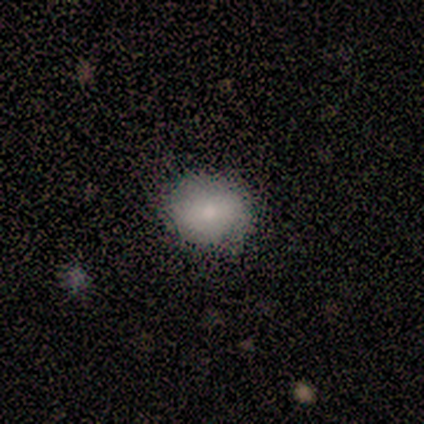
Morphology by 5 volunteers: Smooth or featured? 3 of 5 (60%) said smooth. How rounded? 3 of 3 (100%) said round. Merging? 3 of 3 (100%) said none.